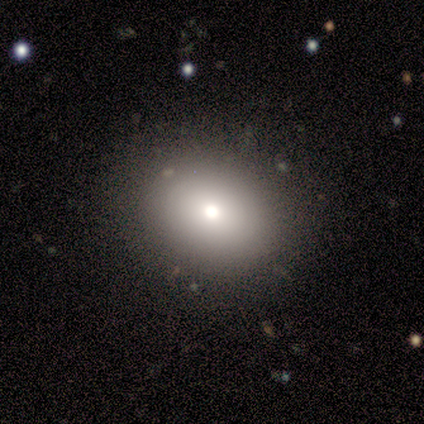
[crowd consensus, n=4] Smooth or featured: smooth — 75% (star or artifact — 25%)
How rounded: in between — 67% (round — 33%)
Merging: none — 67% (minor disturbance — 33%)